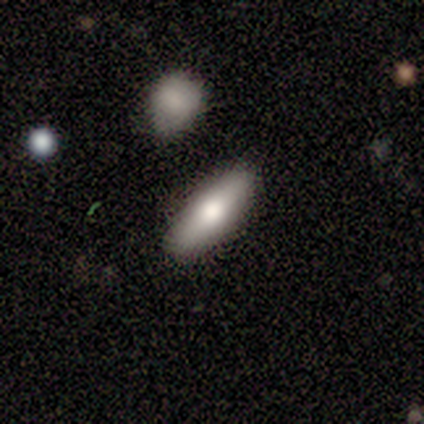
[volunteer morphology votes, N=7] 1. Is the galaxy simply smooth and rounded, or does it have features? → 100% smooth, 0% featured or disk, 0% star or artifact.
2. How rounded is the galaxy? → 57% in between, 43% cigar-shaped, 0% round.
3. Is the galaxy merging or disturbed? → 86% none, 14% minor disturbance, 0% major disturbance, 0% merger.